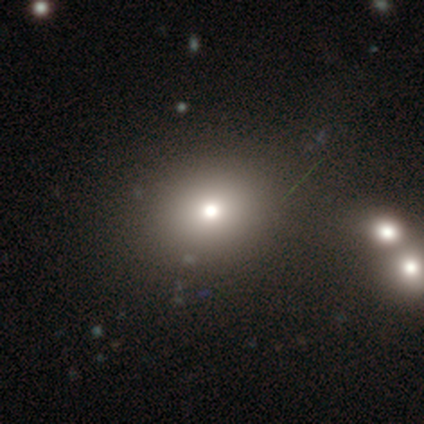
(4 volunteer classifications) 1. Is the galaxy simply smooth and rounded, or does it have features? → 75% smooth, 25% star or artifact, 0% featured or disk.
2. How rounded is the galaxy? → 67% round, 33% in between, 0% cigar-shaped.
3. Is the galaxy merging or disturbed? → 100% none, 0% minor disturbance, 0% major disturbance, 0% merger.